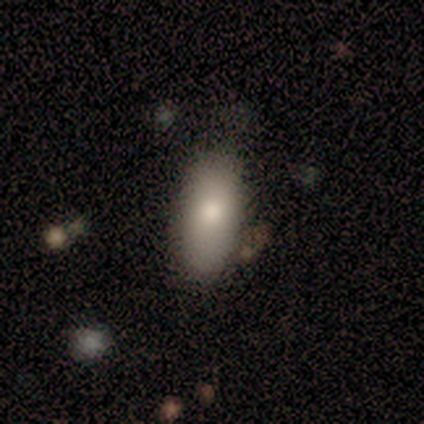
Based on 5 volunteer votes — A smooth galaxy with no disk features (80%) that is in between round and cigar-shaped (100%). Merging: none (60%).